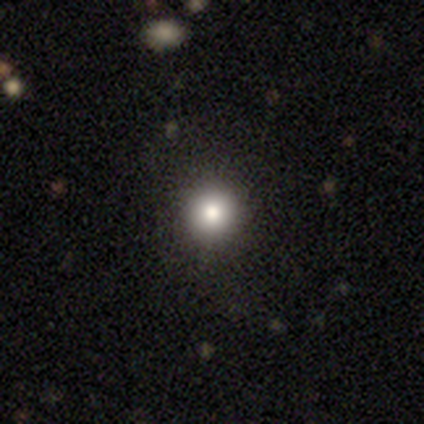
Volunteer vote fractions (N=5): smooth 60%, star or artifact 40%, featured or disk 0%. Down the decision tree: how rounded — round (100%); merging — none (100%).